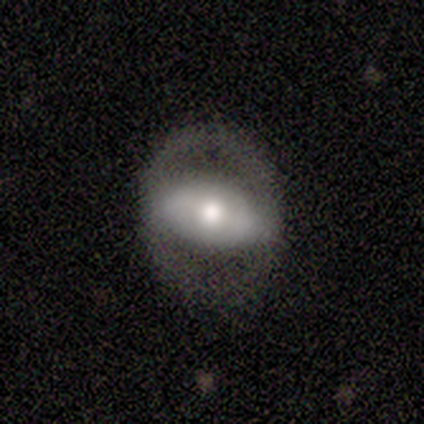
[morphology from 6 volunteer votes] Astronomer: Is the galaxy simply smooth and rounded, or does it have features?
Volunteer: featured or disk — 83%.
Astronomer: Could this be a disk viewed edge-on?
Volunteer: no — 80%.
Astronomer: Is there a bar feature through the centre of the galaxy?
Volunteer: no — 100%.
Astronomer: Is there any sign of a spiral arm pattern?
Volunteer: no — 75%.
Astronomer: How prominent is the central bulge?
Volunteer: moderate — 50%.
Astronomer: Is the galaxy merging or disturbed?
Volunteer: none — 60%.